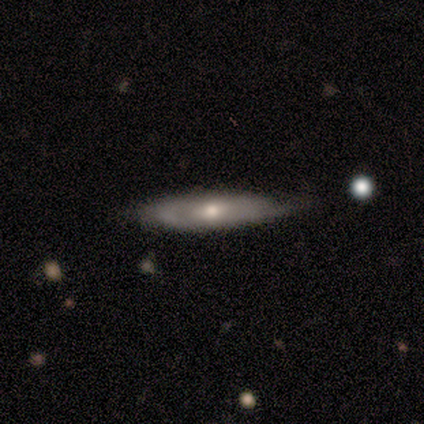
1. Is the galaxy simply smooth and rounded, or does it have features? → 57% smooth, 38% featured or disk, 5% star or artifact.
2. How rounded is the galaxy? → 83% cigar-shaped, 17% in between, 0% round.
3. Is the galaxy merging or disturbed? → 75% none, 25% minor disturbance, 0% major disturbance, 0% merger.